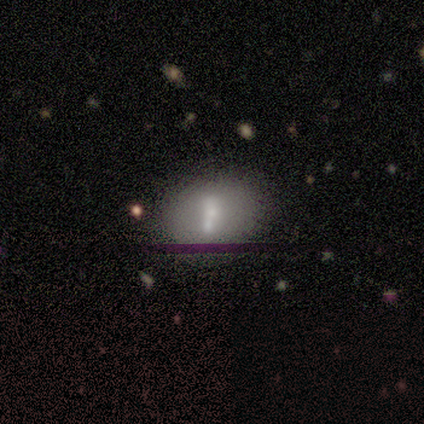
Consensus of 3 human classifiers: Q: Smooth or featured?
A: featured or disk (67%); runner-up: smooth (33%)
Q: Edge-on disk?
A: no (100%)
Q: Bar?
A: no (100%)
Q: Spiral arms?
A: no (100%)
Q: Bulge size?
A: moderate (50%); tied with: small (50%)
Q: Merging?
A: none (100%)